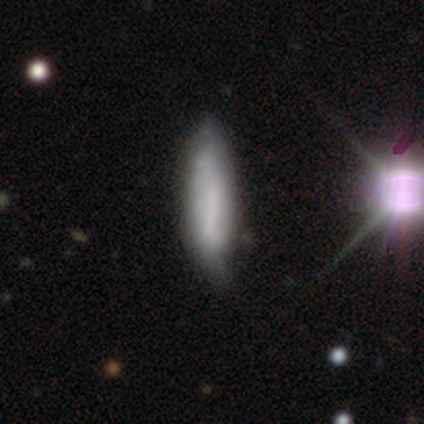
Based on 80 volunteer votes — smooth 54%, featured or disk 41%, star or artifact 5%. Down the decision tree: how rounded — cigar-shaped (79%); merging — minor disturbance (24%).